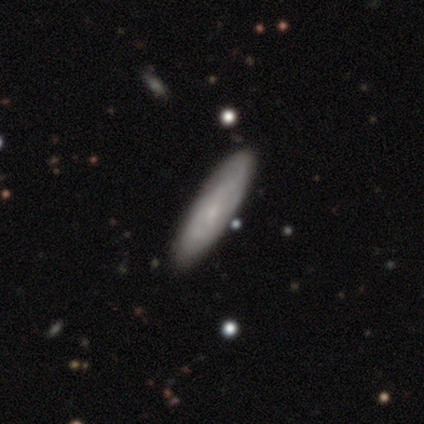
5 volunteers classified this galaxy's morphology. A smooth galaxy with no disk features (60%) that is in between round and cigar-shaped (67%).

Vote fractions:
- Smooth or featured? smooth: 60% / featured or disk: 40% / star or artifact: 0%
- How rounded? in between: 67% / cigar-shaped: 33% / round: 0%
- Merging? none: 100% / minor disturbance: 0% / major disturbance: 0% / merger: 0%